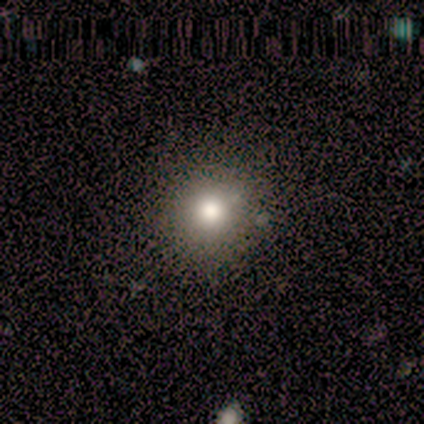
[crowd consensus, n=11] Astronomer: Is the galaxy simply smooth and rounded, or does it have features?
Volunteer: smooth — 82%.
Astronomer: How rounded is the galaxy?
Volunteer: round — 100%.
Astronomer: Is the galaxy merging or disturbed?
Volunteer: none — 80%.